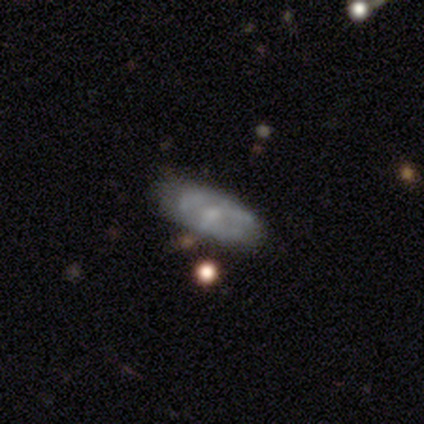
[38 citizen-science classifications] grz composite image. It shows a featured or disk galaxy (63%) with no bar (57%), no spiral arms (70%) and a moderate central bulge (57%). Merging: none (63%).